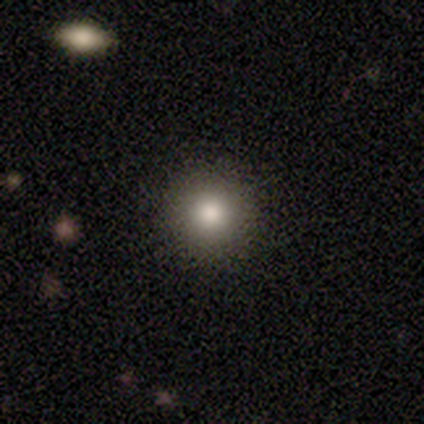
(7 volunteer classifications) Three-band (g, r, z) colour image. It shows a smooth galaxy with no disk features (86%) that is round (100%). Merging: none (100%).